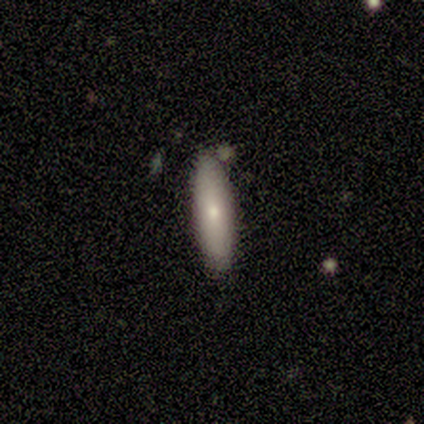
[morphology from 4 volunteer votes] A smooth galaxy with no disk features (100%) that is in between round and cigar-shaped (50%, tied with cigar-shaped). Merging: none (100%).